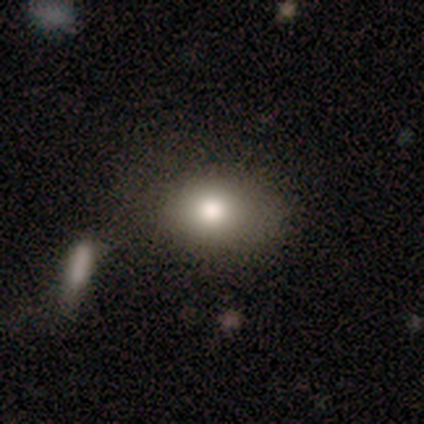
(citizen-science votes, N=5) Morphology: type=smooth (100%); roundness=in between (80%); merging=none (60%).